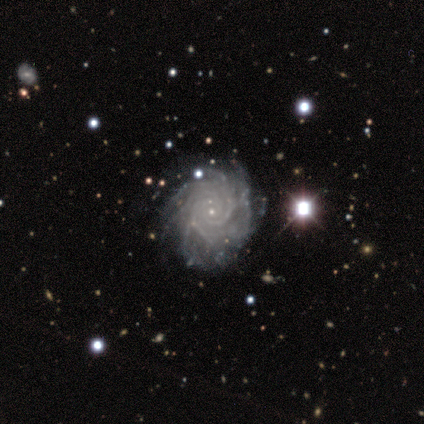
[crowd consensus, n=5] smooth_or_featured: featured or disk (p=1.00)
disk_edge_on: no (p=1.00)
bar: no (p=1.00)
has_spiral_arms: yes (p=1.00)
spiral_winding: tight (p=1.00)
spiral_arm_count: more than 4 (p=0.40) [tied with: can't tell p=0.40]
bulge_size: small (p=1.00)
merging: none (p=0.80) [alt: minor disturbance p=0.20]